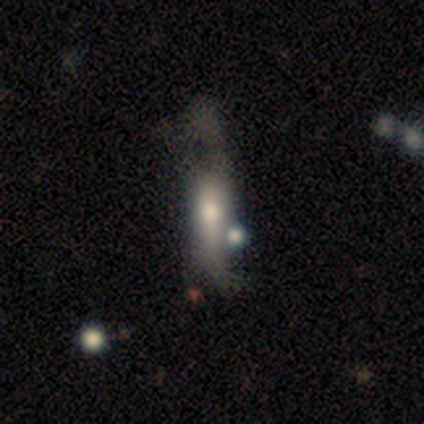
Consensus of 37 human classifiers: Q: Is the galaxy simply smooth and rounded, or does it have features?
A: smooth — 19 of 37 (51%).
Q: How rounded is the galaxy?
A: cigar-shaped — 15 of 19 (79%).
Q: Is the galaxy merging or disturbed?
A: major disturbance — 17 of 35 (49%).